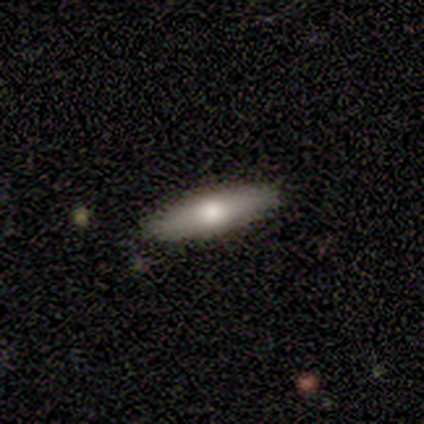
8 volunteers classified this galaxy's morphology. A smooth galaxy with no disk features (88%) that is cigar-shaped (86%). Merging: none (100%).